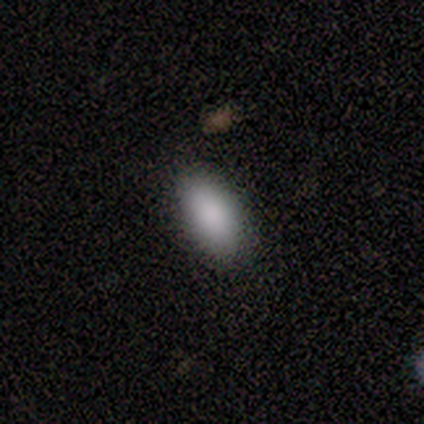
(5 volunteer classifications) This is clearly a smooth galaxy (100%). How rounded: clearly in between (100%). Merging: clearly none (100%).